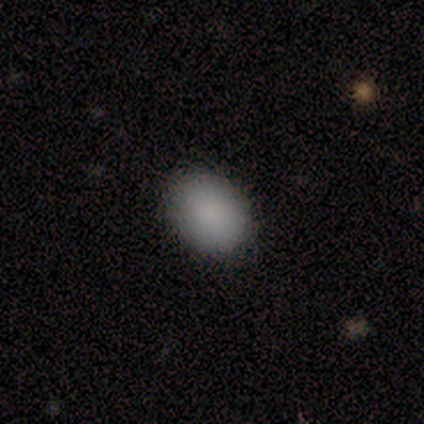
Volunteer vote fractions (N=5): A smooth galaxy with no disk features (100%) that is in between round and cigar-shaped (60%). Merging: none (100%).